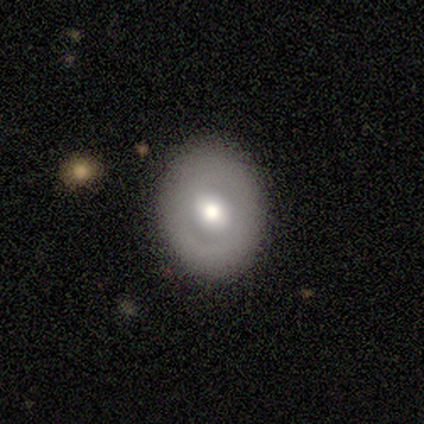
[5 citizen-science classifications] A smooth galaxy with no disk features (40%, tied with featured or disk) that is round (100%). Merging: none (75%).